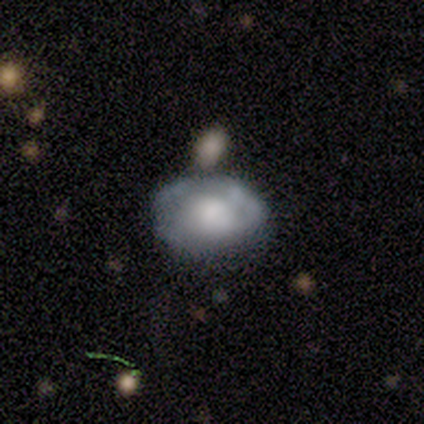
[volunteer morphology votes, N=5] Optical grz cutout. It shows a smooth galaxy with no disk features (60%) that is in between round and cigar-shaped (67%). Merging: none (40%, tied with minor disturbance).